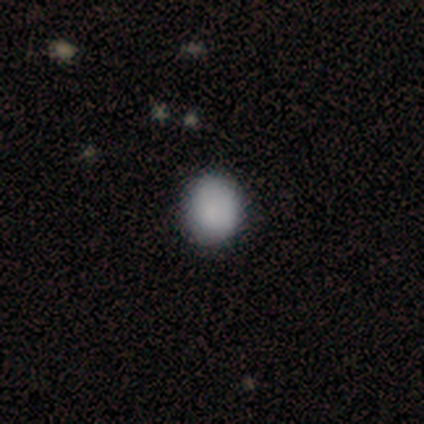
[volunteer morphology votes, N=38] Overall: smooth (95%). How rounded: round (89%). Merging: none (84%).